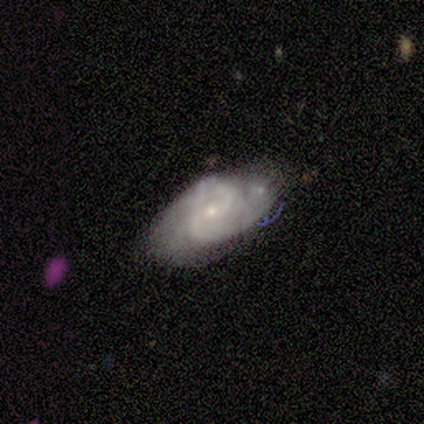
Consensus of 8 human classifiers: Volunteers were most divided on "spiral winding": medium: 60%, tight: 40%, loose: 0%. More confident: spiral arms — yes (100%); bulge size — small (100%); edge-on disk — no (83%); bar — no (80%); smooth or featured — featured or disk (75%); merging — none (75%); spiral arm count — 2 (60%).